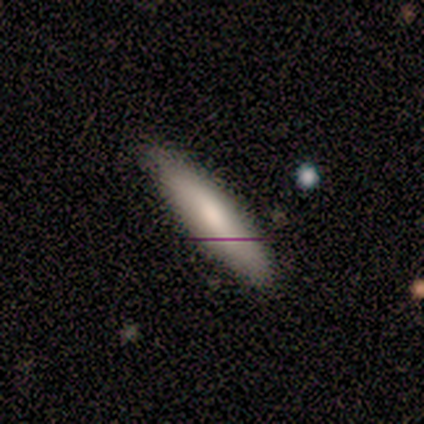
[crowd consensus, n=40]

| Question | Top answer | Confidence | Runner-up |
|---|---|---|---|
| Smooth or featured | smooth | 78% | featured or disk (18%) |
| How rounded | cigar-shaped | 68% | in between (32%) |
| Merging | none | 74% | minor disturbance (13%) |